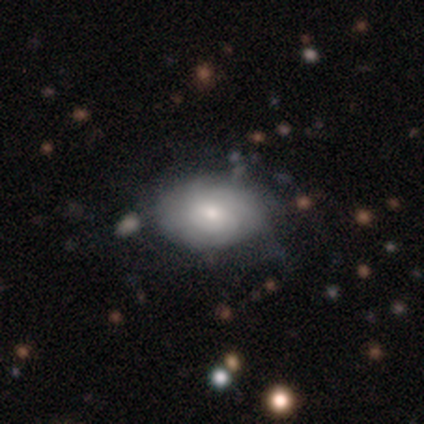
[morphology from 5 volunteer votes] smooth-or-featured: smooth: 80% | star or artifact: 20% | featured or disk: 0%
  how-rounded: in between: 100% | round: 0% | cigar-shaped: 0%
  merging: none: 75% | major disturbance: 25% | minor disturbance: 0% | merger: 0%